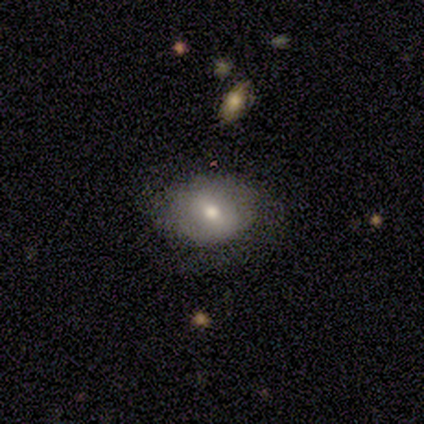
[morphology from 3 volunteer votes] Smooth or featured: smooth — 33% (tied with featured or disk — 33%; star or artifact — 33%)
How rounded: in between — 100%
Merging: none — 50% (tied with merger — 50%)